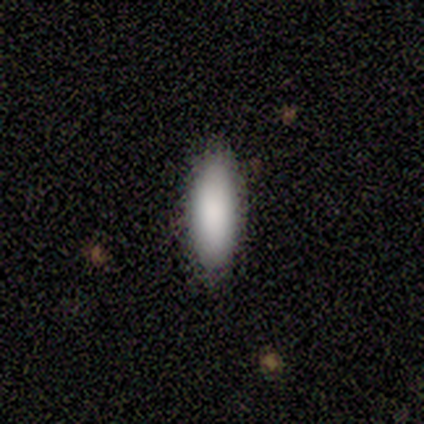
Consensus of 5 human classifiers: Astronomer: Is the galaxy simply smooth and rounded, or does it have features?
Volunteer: smooth — 80%.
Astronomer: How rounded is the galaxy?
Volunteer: in between — 75%.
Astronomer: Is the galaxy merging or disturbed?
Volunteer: none — 100%.